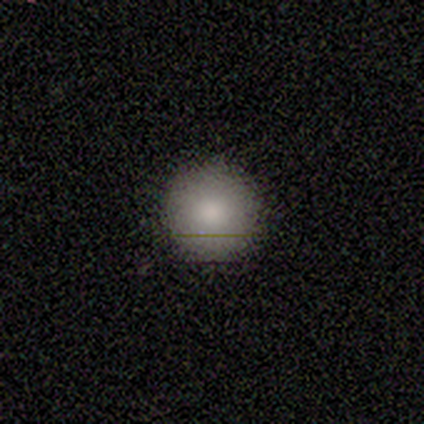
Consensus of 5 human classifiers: Volunteers were most divided on "smooth or featured": smooth: 80%, featured or disk: 20%, star or artifact: 0%. More confident: how rounded — round (100%); merging — none (80%).